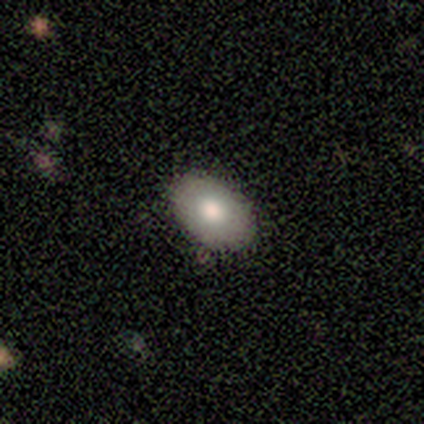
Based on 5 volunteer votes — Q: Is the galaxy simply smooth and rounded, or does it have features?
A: smooth — 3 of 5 (60%).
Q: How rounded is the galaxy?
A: in between — 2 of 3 (67%).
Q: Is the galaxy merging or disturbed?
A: none — 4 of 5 (80%).